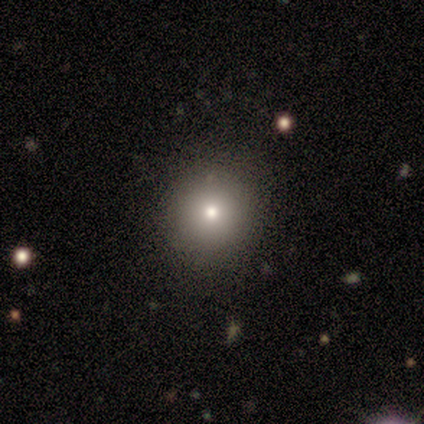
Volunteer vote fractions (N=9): Smooth or featured? 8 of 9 (89%) said smooth. How rounded? 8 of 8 (100%) said round. Merging? 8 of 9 (89%) said none.